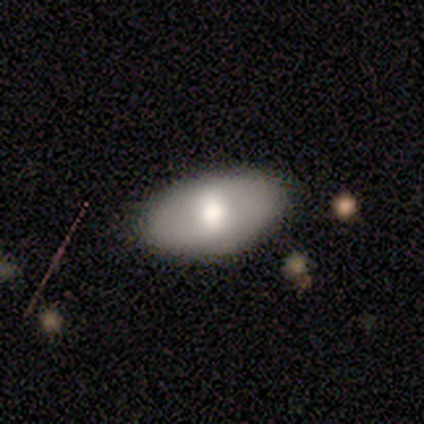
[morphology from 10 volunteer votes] smooth 80%, featured or disk 20%, star or artifact 0%. Down the decision tree: how rounded — in between (88%); merging — none (70%).